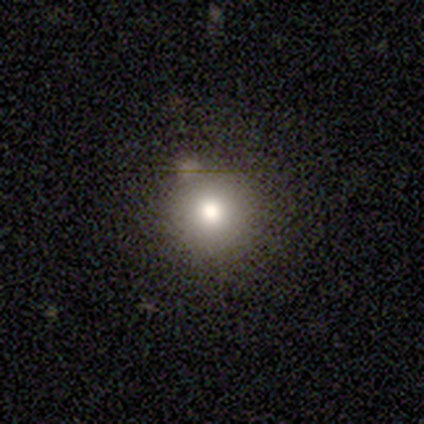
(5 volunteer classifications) smooth 80%, featured or disk 20%, star or artifact 0%. Down the decision tree: how rounded — round (100%); merging — none (100%).